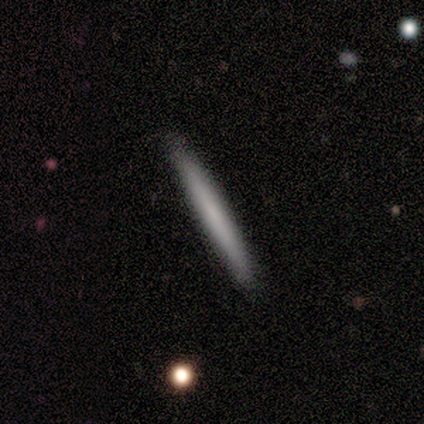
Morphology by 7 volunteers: Volunteers were most divided on "smooth or featured": smooth: 57%, featured or disk: 43%, star or artifact: 0%. More confident: how rounded — cigar-shaped (100%); merging — none (71%).